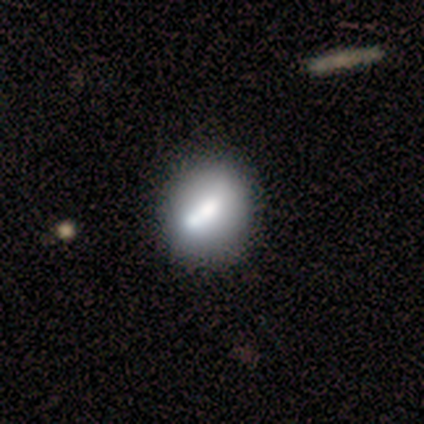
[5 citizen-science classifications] This appears to be a smooth galaxy with no disk features (80%) that is in between round and cigar-shaped (50%). Merging: none (40%, tied with minor disturbance).